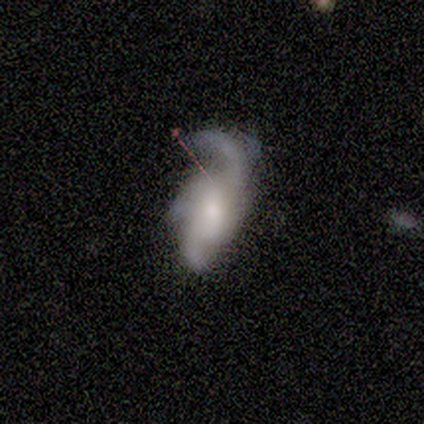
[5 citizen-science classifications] A featured or disk galaxy (100%) with no bar (60%), 3 (50%) medium (50%) spiral arms (80%) and a small central bulge (40%, tied with none). Merging: none (60%).